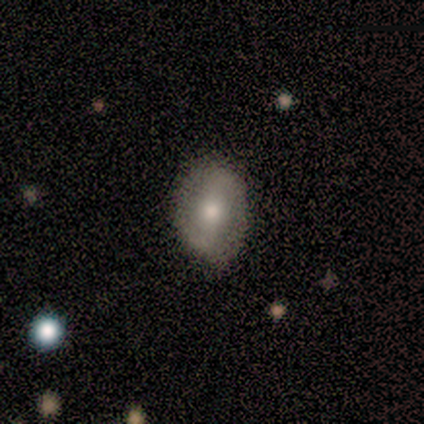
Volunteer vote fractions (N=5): Volunteers were most divided on "bar": strong: 75%, weak: 25%, no: 0%. More confident: edge-on disk — no (100%); spiral arms — yes (100%); spiral winding — medium (100%); spiral arm count — 2 (100%); bulge size — moderate (100%); merging — none (100%); smooth or featured — featured or disk (80%).